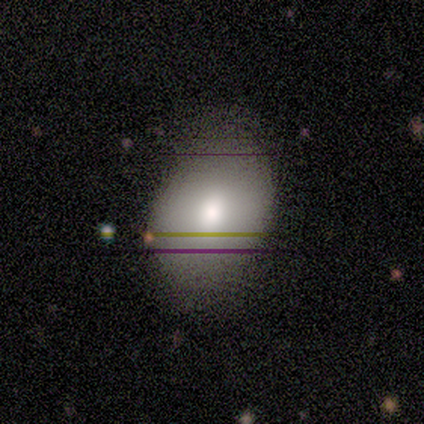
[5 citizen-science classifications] Smooth or featured: smooth — 100%
How rounded: in between — 60% (round — 40%)
Merging: none — 80% (minor disturbance — 20%)